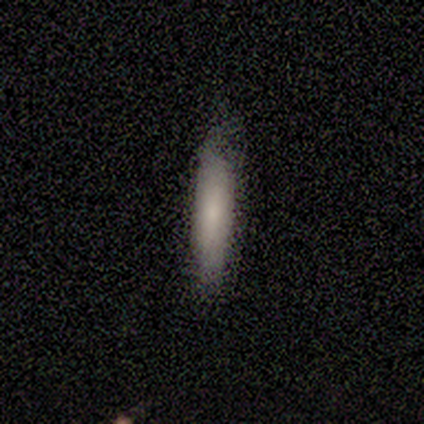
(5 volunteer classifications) Q: Smooth or featured?
A: smooth (80%); runner-up: featured or disk (20%)
Q: How rounded?
A: cigar-shaped (100%)
Q: Merging?
A: none (60%); runner-up: minor disturbance (40%)